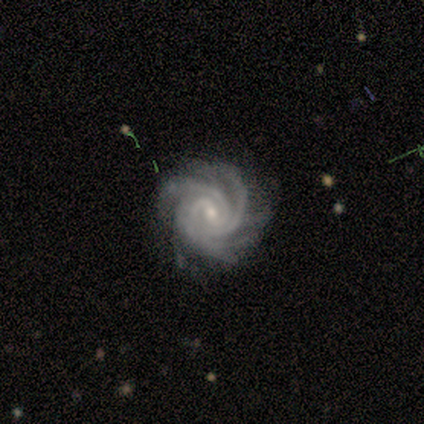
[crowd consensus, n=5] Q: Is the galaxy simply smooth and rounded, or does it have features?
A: featured or disk — 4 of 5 (80%).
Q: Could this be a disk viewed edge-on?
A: no — 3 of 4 (75%).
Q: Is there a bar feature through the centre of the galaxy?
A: weak — 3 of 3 (100%).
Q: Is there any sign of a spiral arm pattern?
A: yes — 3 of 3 (100%).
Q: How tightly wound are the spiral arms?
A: tight — 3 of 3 (100%).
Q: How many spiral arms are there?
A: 2 — 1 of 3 (33%, tied with 4 and can't tell).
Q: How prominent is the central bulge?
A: small — 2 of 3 (67%).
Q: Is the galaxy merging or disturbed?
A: minor disturbance — 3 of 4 (75%).